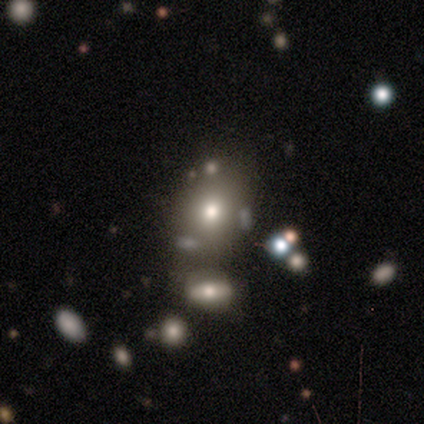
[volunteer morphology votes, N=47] type=smooth (62%); roundness=round (59%); merging=none (53%).